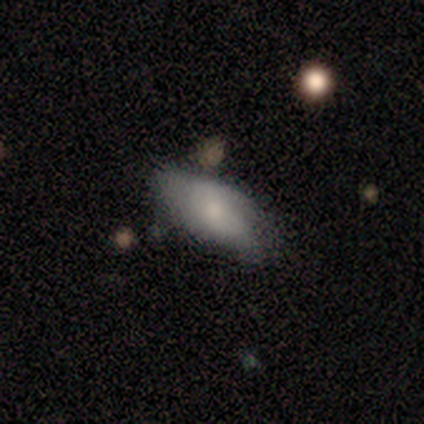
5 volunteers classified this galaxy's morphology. smooth_or_featured: smooth (p=0.80) [alt: featured or disk p=0.20]
how_rounded: in between (p=1.00)
merging: minor disturbance (p=0.60) [alt: none p=0.40]